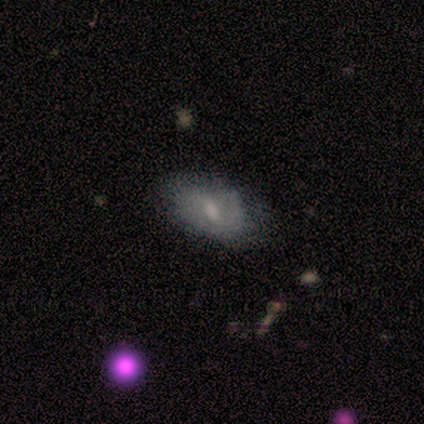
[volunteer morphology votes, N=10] featured or disk 60%, smooth 30%, star or artifact 10%. Down the decision tree: edge-on disk — no (100%); bar — weak (50%, tied with no); spiral arms — yes (50%, tied with no); spiral arm count — 1 (67%); spiral winding — loose (67%); bulge size — small (83%); merging — none (67%).